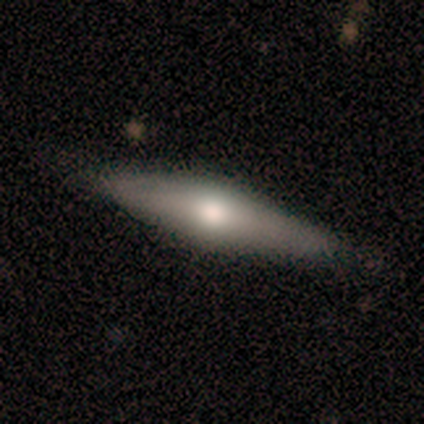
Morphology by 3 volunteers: featured or disk 100%, smooth 0%, star or artifact 0%. Down the decision tree: edge-on disk — yes (100%); edge-on bulge — rounded (100%); merging — none (67%).